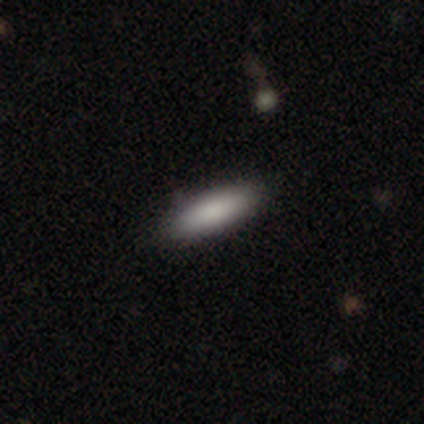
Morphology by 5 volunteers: This is clearly a smooth galaxy (100%). How rounded: clearly in between (80%). Merging: clearly none (100%).